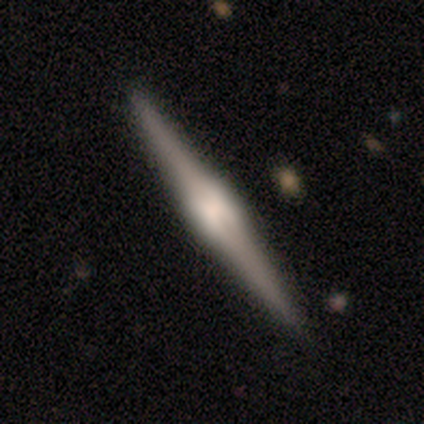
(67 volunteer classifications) smooth-or-featured: featured or disk: 84% | smooth: 9% | star or artifact: 7%
  disk-edge-on: yes: 98% | no: 2%
    edge-on-bulge: boxy: 53% | rounded: 44% | none: 4%
  merging: none: 95% | merger: 3% | minor disturbance: 2% | major disturbance: 0%